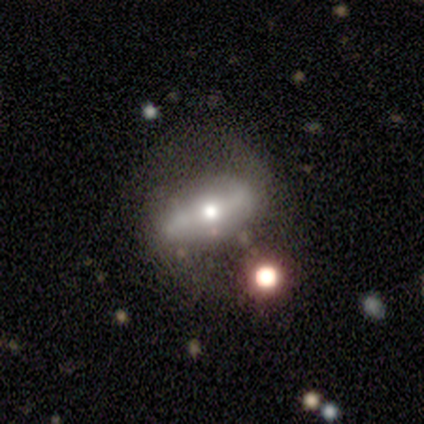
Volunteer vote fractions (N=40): Smooth or featured: featured or disk — 70% (smooth — 30%)
Edge-on disk: no — 82% (yes — 18%)
Bar: strong — 52% (weak — 30%)
Spiral arms: yes — 61% (no — 39%)
Spiral winding: loose — 71% (tight — 14%)
Spiral arm count: 2 — 79% (can't tell — 14%)
Bulge size: moderate — 70% (small — 17%)
Merging: none — 32% (major disturbance — 15%)